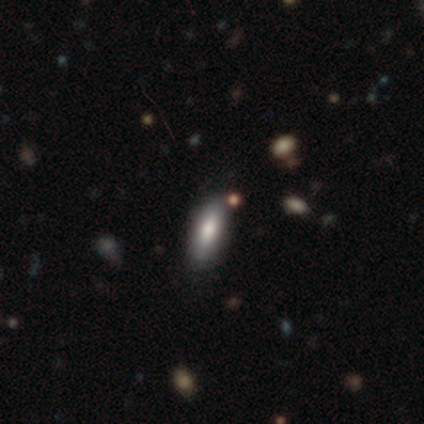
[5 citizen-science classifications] This appears to be a smooth galaxy with no disk features (60%) that is in between round and cigar-shaped (67%). Merging: none (75%).